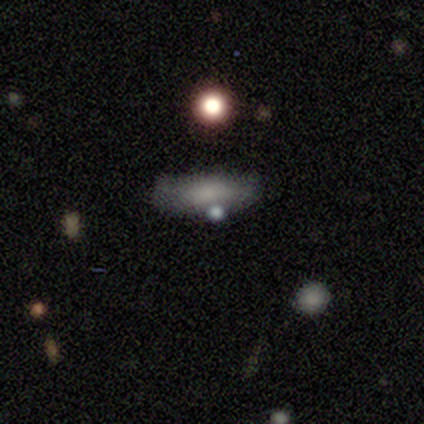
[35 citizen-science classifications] Overall: smooth (57%; star or artifact 23%). How rounded: in between (80%). Merging: none (56%; minor disturbance 30%).